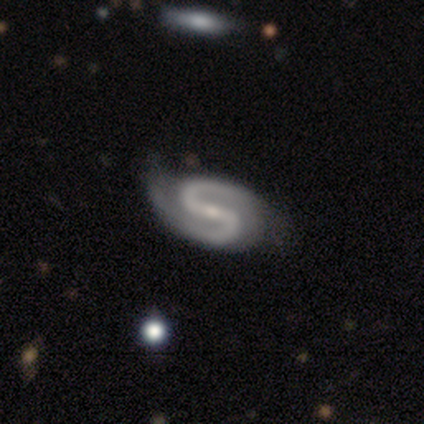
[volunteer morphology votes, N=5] Q: Smooth or featured?
A: featured or disk (100%)
Q: Edge-on disk?
A: no (100%)
Q: Bar?
A: strong (60%); runner-up: weak (40%)
Q: Spiral arms?
A: yes (100%)
Q: Spiral winding?
A: medium (60%); runner-up: loose (40%)
Q: Spiral arm count?
A: 2 (100%)
Q: Bulge size?
A: small (60%); runner-up: moderate (20%)
Q: Merging?
A: none (80%); runner-up: minor disturbance (20%)